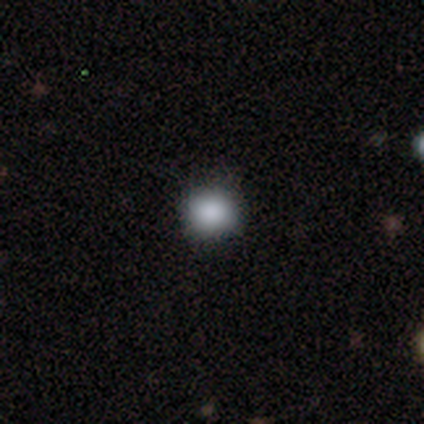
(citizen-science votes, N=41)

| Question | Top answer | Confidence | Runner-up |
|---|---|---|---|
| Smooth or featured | smooth | 80% | star or artifact (12%) |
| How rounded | round | 94% | in between (6%) |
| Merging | none | 72% | major disturbance (3%) |